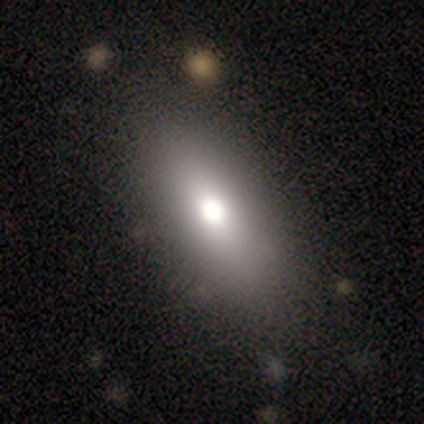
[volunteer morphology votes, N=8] smooth-or-featured: smooth: 75% | star or artifact: 25% | featured or disk: 0%
  how-rounded: in between: 100% | round: 0% | cigar-shaped: 0%
  merging: none: 100% | minor disturbance: 0% | major disturbance: 0% | merger: 0%